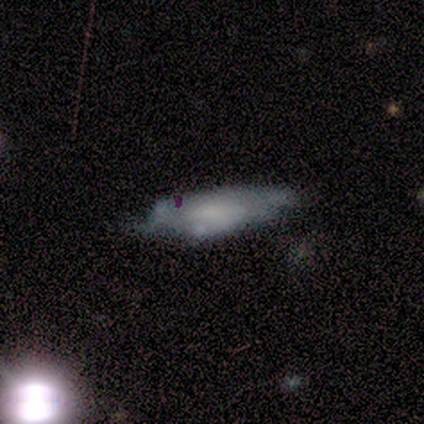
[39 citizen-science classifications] smooth_or_featured: smooth (p=0.44) [alt: featured or disk p=0.41]
how_rounded: in between (p=0.59) [alt: cigar-shaped p=0.41]
merging: none (p=0.33) [alt: minor disturbance p=0.27]